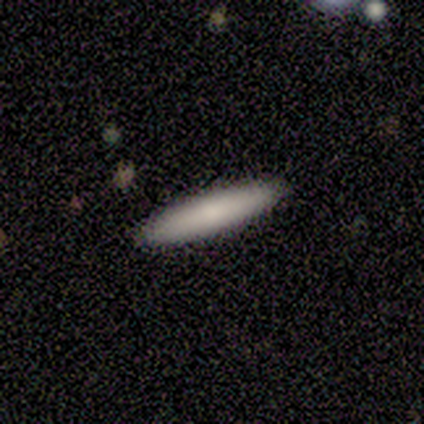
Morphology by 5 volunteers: Smooth or featured?
  - smooth: 80% *
  - featured or disk: 20%
  - star or artifact: 0%
How rounded?
  - cigar-shaped: 75% *
  - in between: 25%
  - round: 0%
Merging?
  - none: 100% *
  - minor disturbance: 0%
  - major disturbance: 0%
  - merger: 0%